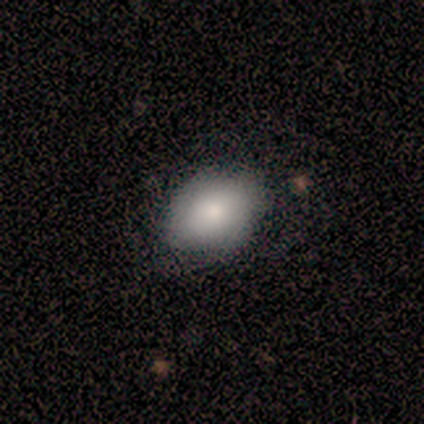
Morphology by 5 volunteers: A smooth galaxy with no disk features (80%) that is in between round and cigar-shaped (75%).

Vote fractions:
- Smooth or featured? smooth: 80% / featured or disk: 20% / star or artifact: 0%
- How rounded? in between: 75% / round: 25% / cigar-shaped: 0%
- Merging? none: 60% / minor disturbance: 40% / major disturbance: 0% / merger: 0%